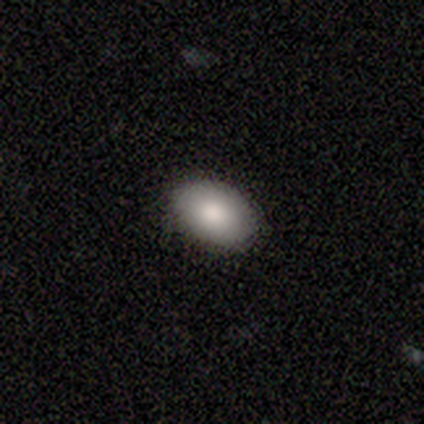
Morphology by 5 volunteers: smooth_or_featured: smooth (p=0.80) [alt: star or artifact p=0.20]
how_rounded: in between (p=1.00)
merging: none (p=1.00)